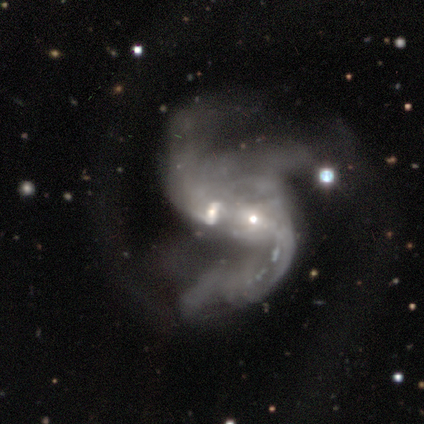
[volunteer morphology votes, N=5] This appears to be a featured or disk galaxy (100%) with a weak bar (40%, tied with no), 2 (60%) loose (80%) spiral arms (100%) and a small central bulge (80%). Merging: merger (40%).